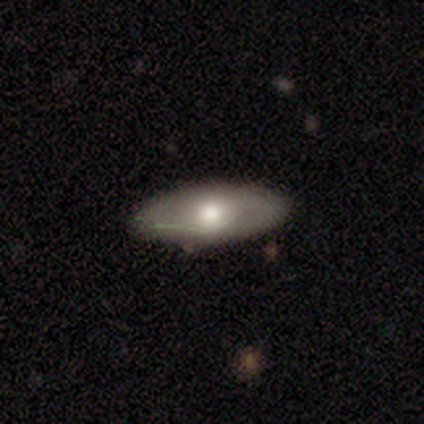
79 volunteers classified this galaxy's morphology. smooth 65%, featured or disk 32%, star or artifact 4%. Down the decision tree: how rounded — in between (94%); merging — none (42%).